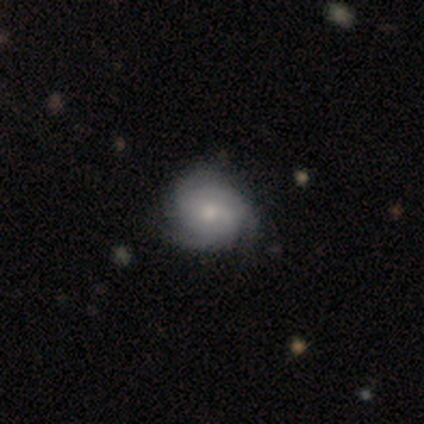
Overall: featured or disk (74%). Edge-on disk: no (98%). Bar: no (73%). Spiral arms: yes (96%). Spiral arm count: 3 (63%). Spiral winding: tight (72%). Bulge size: moderate (54%; small 36%). Merging: none (68%).